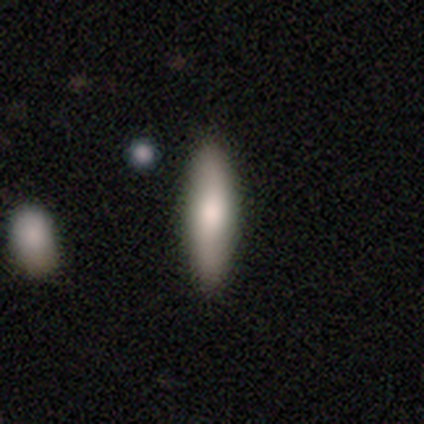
Smooth or featured? featured or disk (60%)
Edge-on disk? yes (100%)
Edge-on bulge? rounded (67%)
Merging? none (80%)